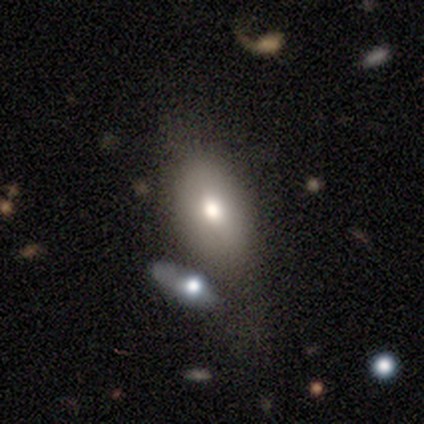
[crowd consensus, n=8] Smooth or featured?
  - smooth: 75% *
  - featured or disk: 25%
  - star or artifact: 0%
How rounded?
  - in between: 83% *
  - cigar-shaped: 17%
  - round: 0%
Merging?
  - none: 62% *
  - minor disturbance: 12%
  - major disturbance: 12%
  - merger: 12%